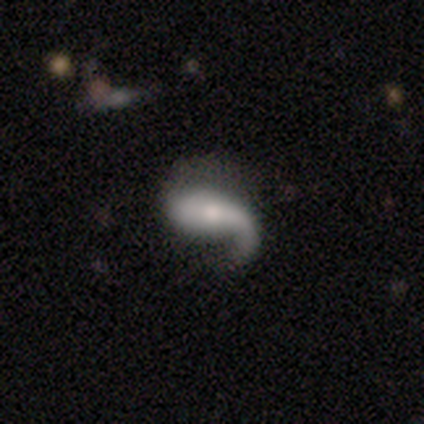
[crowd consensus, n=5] Overall: smooth (60%; featured or disk 20%). How rounded: in between (100%). Merging: major disturbance (50%; none 25%).